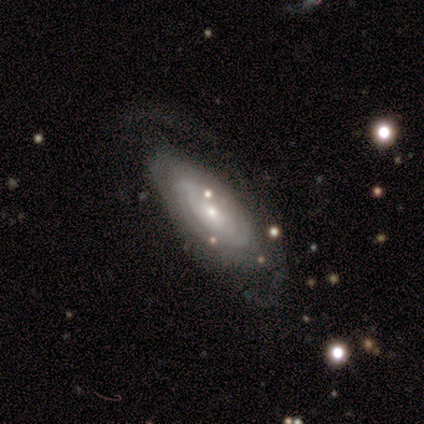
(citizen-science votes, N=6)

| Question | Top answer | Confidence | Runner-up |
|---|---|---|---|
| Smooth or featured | featured or disk | 67% | smooth (33%) |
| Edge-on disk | no | 100% | — |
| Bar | no | 100% | — |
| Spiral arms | yes | 75% | no (25%) |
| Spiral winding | tight | 100% | — |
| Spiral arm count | can't tell | 67% | 1 (33%) |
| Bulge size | small | 75% | moderate (25%) |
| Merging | none | 83% | merger (17%) |